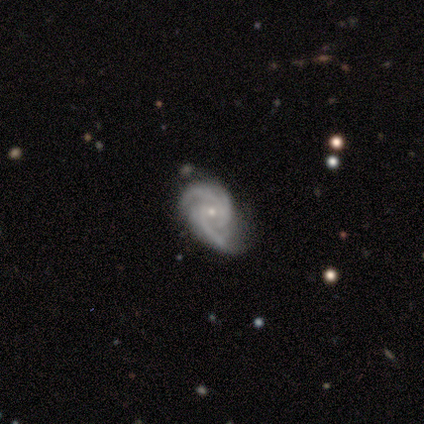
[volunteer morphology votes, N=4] A featured or disk galaxy (100%) with no bar (67%), 2 (100%) medium (67%) spiral arms (100%) and a small central bulge (100%). Merging: none (50%, tied with major disturbance).